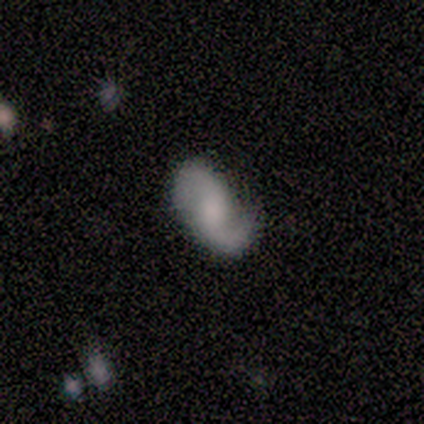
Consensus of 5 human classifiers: Smooth or featured? 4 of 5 (80%) said featured or disk. Edge-on disk? 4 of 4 (100%) said no. Bar? 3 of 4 (75%) said no. Spiral arms? 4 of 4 (100%) said yes. Spiral winding? 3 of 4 (75%) said loose. Spiral arm count? 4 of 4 (100%) said 2. Bulge size? 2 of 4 (50%) said moderate. Merging? 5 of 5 (100%) said none.